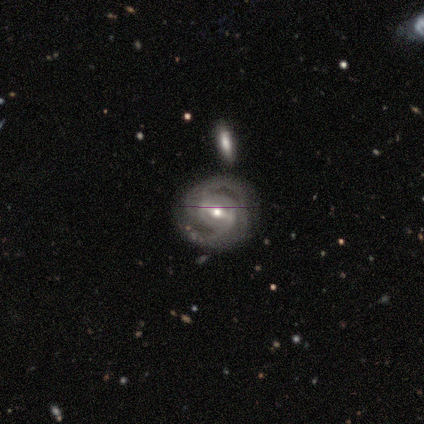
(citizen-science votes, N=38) Overall: featured or disk (89%). Edge-on disk: no (97%). Bar: strong (55%; weak 33%). Spiral arms: yes (97%). Spiral arm count: 2 (78%). Spiral winding: tight (59%; medium 31%). Bulge size: moderate (45%; small 42%). Merging: none (73%).